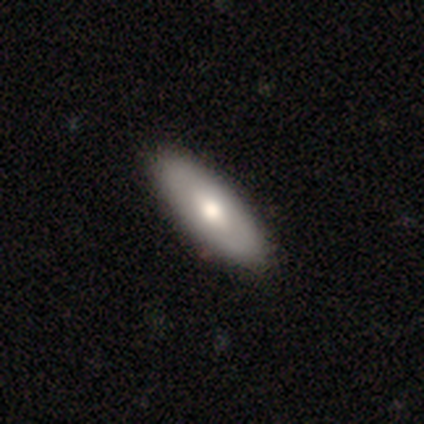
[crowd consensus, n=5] This is likely a smooth galaxy (60%). How rounded: likely in between (67%). Merging: clearly none (100%).